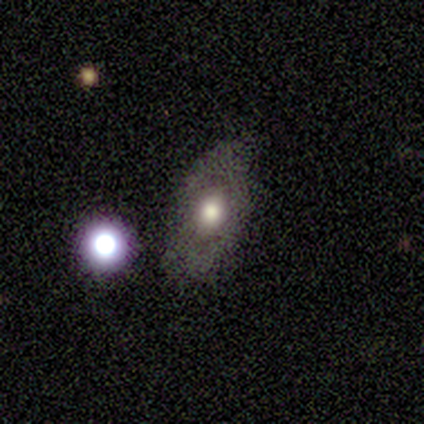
This is likely a featured or disk galaxy (70%). It is clearly not viewed edge-on (86%). Bar: clearly no (100%). Spiral arm pattern: likely no (67%). Central bulge: likely moderate (67%). Merging: likely none (67%).